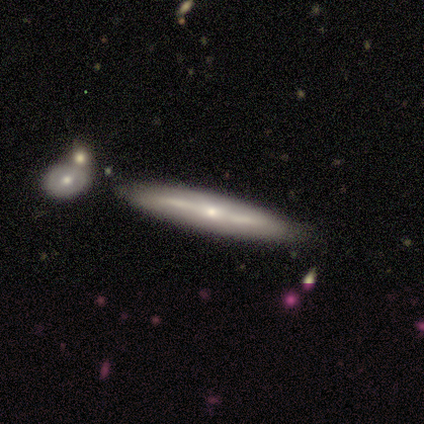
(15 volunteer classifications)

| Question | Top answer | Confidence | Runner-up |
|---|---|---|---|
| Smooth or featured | featured or disk | 73% | smooth (27%) |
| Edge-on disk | yes | 82% | no (18%) |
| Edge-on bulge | rounded | 78% | boxy (11%) |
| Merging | none | 73% | minor disturbance (20%) |